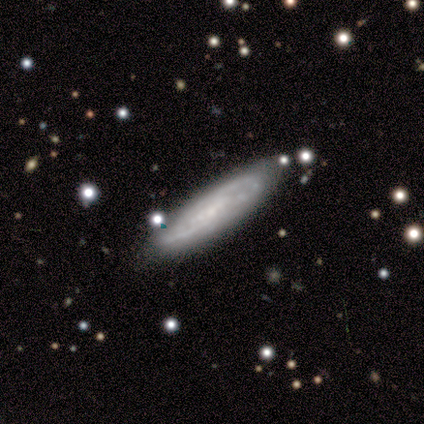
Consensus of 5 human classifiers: Morphology: type=featured or disk (80%); edge-on=no (75%); bar=no (67%); spiral arms=yes (100%); winding=medium (100%); arm count=2 (100%); bulge=none (67%); merging=none (80%).